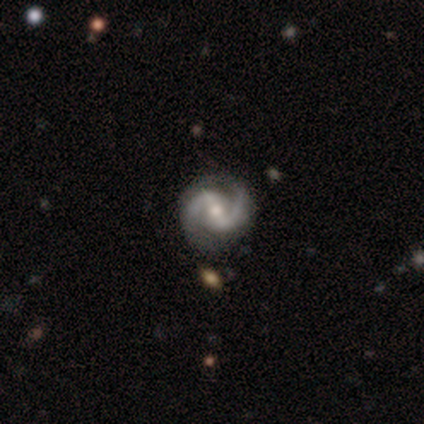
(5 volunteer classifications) Smooth or featured?
  - featured or disk: 100% *
  - smooth: 0%
  - star or artifact: 0%
Edge-on disk?
  - no: 100% *
  - yes: 0%
Bar?
  - weak: 80% *
  - strong: 20%
  - no: 0%
Spiral arms?
  - yes: 100% *
  - no: 0%
Spiral winding?
  - medium: 100% *
  - tight: 0%
  - loose: 0%
Spiral arm count?
  - 2: 100% *
  - 1: 0%
  - 3: 0%
  - 4: 0%
  - more than 4: 0%
  - can't tell: 0%
Bulge size?
  - moderate: 80% *
  - small: 20%
  - dominant: 0%
  - large: 0%
  - none: 0%
Merging?
  - none: 100% *
  - minor disturbance: 0%
  - major disturbance: 0%
  - merger: 0%